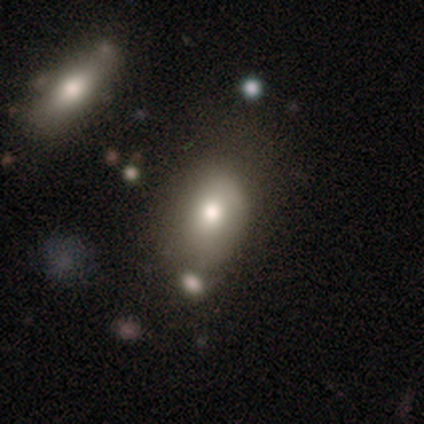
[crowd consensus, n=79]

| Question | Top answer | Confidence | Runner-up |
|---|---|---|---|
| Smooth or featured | smooth | 89% | featured or disk (6%) |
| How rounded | in between | 90% | round (10%) |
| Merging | none | 31% | merger (21%) |